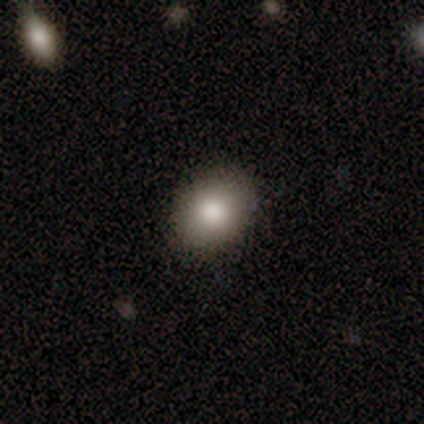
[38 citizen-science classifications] This is likely a smooth galaxy (76%). How rounded: likely in between (62%). Merging: clearly none (92%).